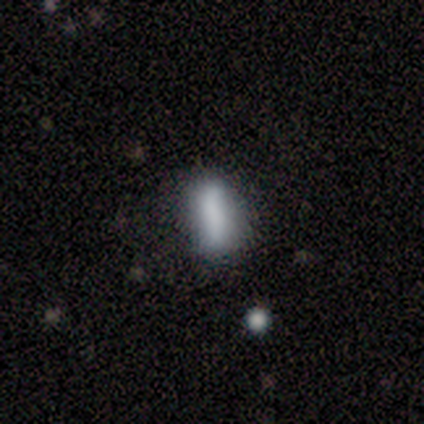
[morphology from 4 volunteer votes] Smooth or featured?
  - smooth: 50% * (tied)
  - featured or disk: 50% * (tied)
  - star or artifact: 0%
How rounded?
  - in between: 100% *
  - round: 0%
  - cigar-shaped: 0%
Merging?
  - none: 50% *
  - minor disturbance: 25%
  - major disturbance: 25%
  - merger: 0%